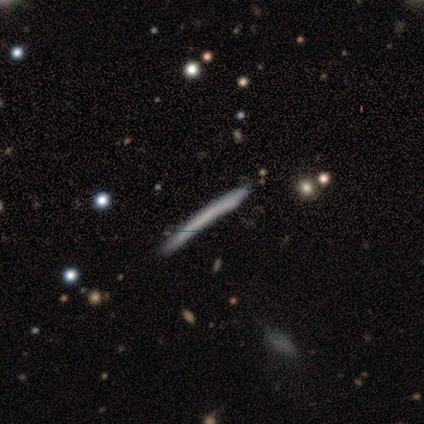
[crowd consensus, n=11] featured or disk 55%, smooth 45%, star or artifact 0%. Down the decision tree: edge-on disk — yes (100%); edge-on bulge — none (83%); merging — none (64%).